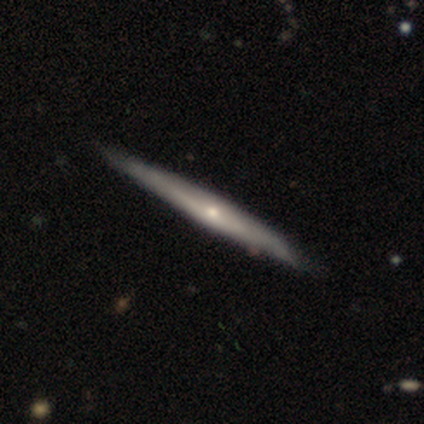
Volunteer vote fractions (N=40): Volunteers were most divided on "smooth or featured": featured or disk: 68%, smooth: 28%, star or artifact: 5%. More confident: edge-on disk — yes (89%); edge-on bulge — rounded (83%); merging — none (76%).